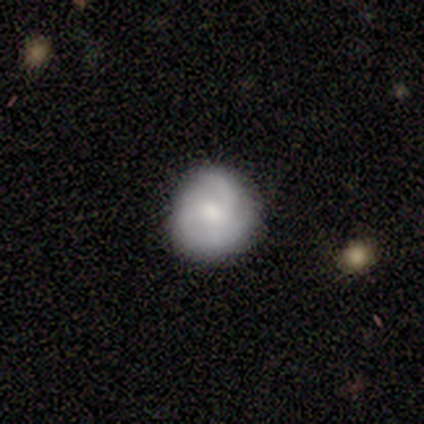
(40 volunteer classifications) A featured or disk galaxy (50%) with no bar (65%), 3 (58%) tight (53%) spiral arms (95%) and a small central bulge (50%). Merging: none (90%).